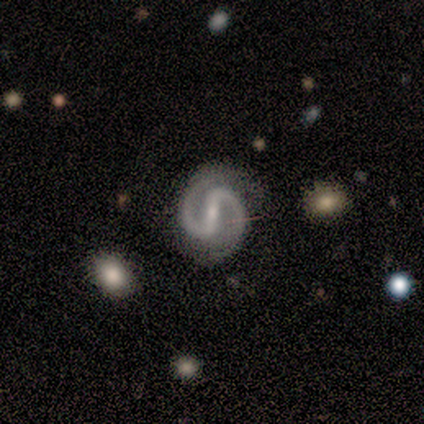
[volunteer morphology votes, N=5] featured or disk 100%, smooth 0%, star or artifact 0%. Down the decision tree: edge-on disk — no (100%); bar — strong (40%, tied with weak); spiral arms — yes (100%); spiral arm count — 2 (100%); spiral winding — medium (60%); bulge size — small (100%); merging — none (80%).